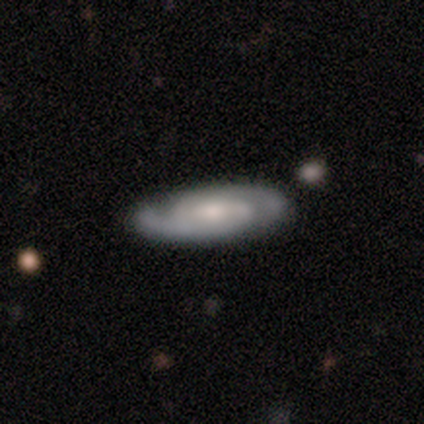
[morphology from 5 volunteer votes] Q: Smooth or featured?
A: featured or disk (100%)
Q: Edge-on disk?
A: no (80%); runner-up: yes (20%)
Q: Bar?
A: no (50%); runner-up: strong (25%)
Q: Spiral arms?
A: yes (100%)
Q: Spiral winding?
A: tight (50%); tied with: medium (50%)
Q: Spiral arm count?
A: 2 (100%)
Q: Bulge size?
A: moderate (50%); tied with: small (50%)
Q: Merging?
A: none (100%)